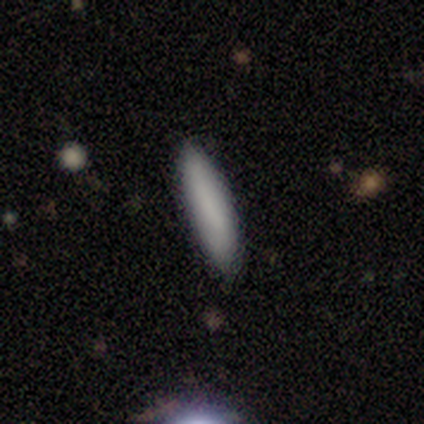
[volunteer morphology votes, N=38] Overall: smooth (84%). How rounded: cigar-shaped (78%). Merging: none (80%).